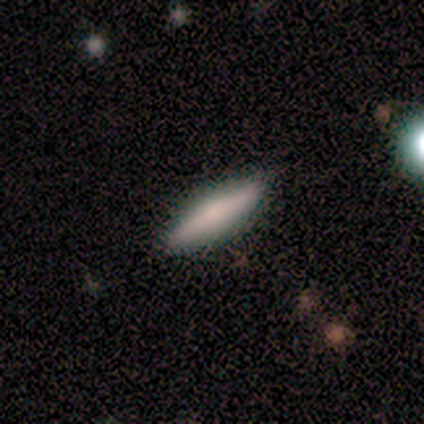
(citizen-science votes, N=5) smooth-or-featured: smooth: 80% | featured or disk: 20% | star or artifact: 0%
  how-rounded: in between: 50% (tied) | cigar-shaped: 50% (tied) | round: 0%
  merging: none: 60% | minor disturbance: 20% | major disturbance: 20% | merger: 0%